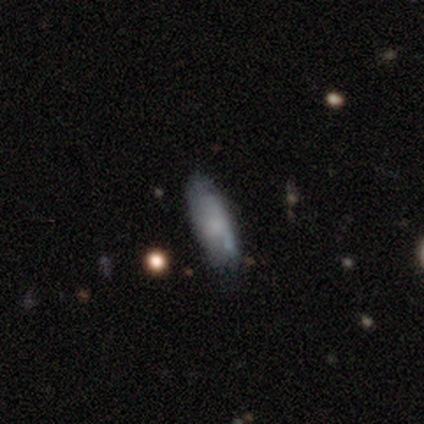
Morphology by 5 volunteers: Smooth or featured: smooth — 80% (star or artifact — 20%)
How rounded: in between — 100%
Merging: none — 75% (major disturbance — 25%)